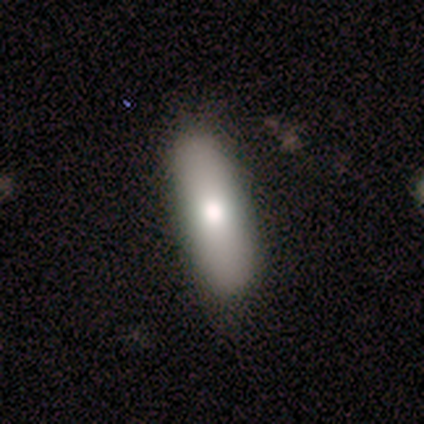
Smooth or featured: smooth — 100%
How rounded: cigar-shaped — 60% (in between — 40%)
Merging: none — 100%